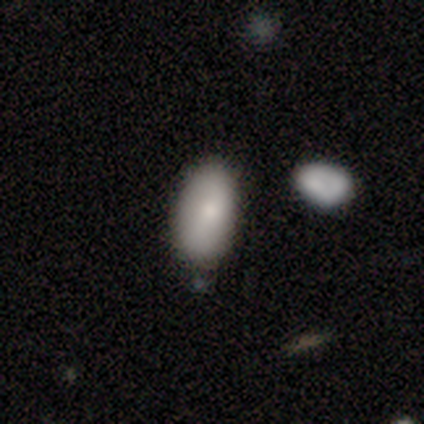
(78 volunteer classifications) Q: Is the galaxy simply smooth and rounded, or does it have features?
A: smooth — 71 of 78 (91%).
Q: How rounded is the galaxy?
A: in between — 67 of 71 (94%).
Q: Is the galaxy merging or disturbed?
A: none — 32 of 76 (42%).